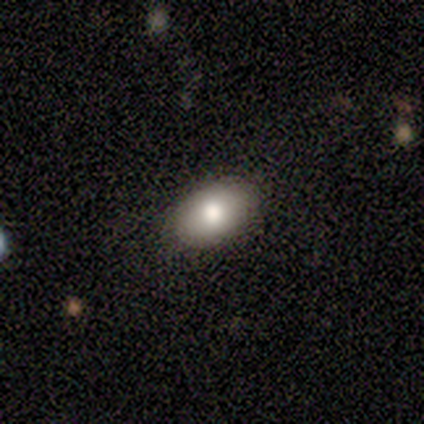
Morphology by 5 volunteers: This appears to be a smooth galaxy with no disk features (80%) that is in between round and cigar-shaped (100%). Merging: none (100%).